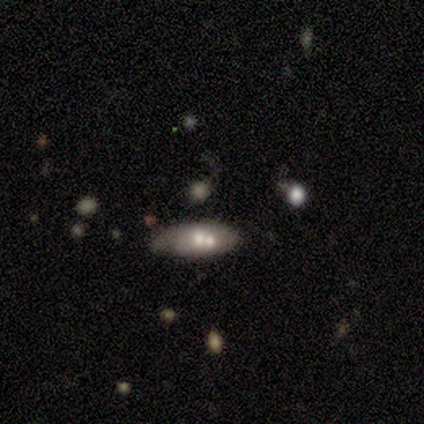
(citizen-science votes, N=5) A smooth galaxy with no disk features (80%) that is in between round and cigar-shaped (50%, tied with cigar-shaped).

Vote fractions:
- Smooth or featured? smooth: 80% / featured or disk: 20% / star or artifact: 0%
- How rounded? in between: 50% (tied) / cigar-shaped: 50% (tied) / round: 0%
- Merging? none: 60% / minor disturbance: 20% / merger: 20% / major disturbance: 0%